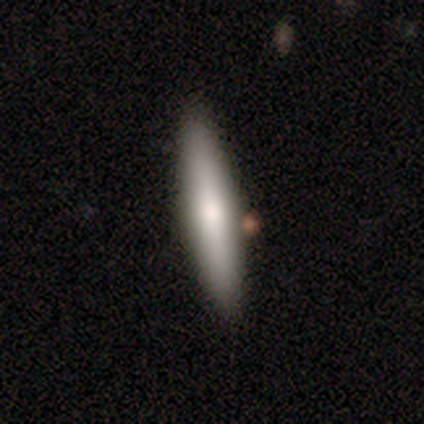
Overall: smooth (70%). How rounded: cigar-shaped (85%). Merging: none (79%).